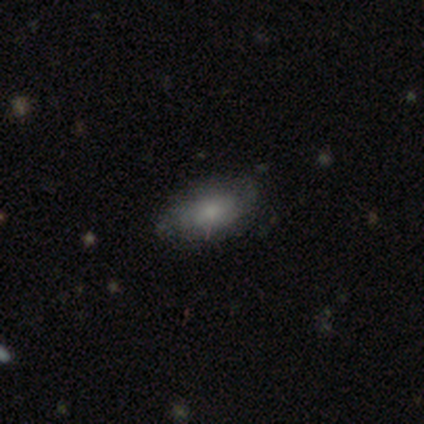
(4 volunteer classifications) Morphology: type=smooth (75%); roundness=in between (100%); merging=none (100%).